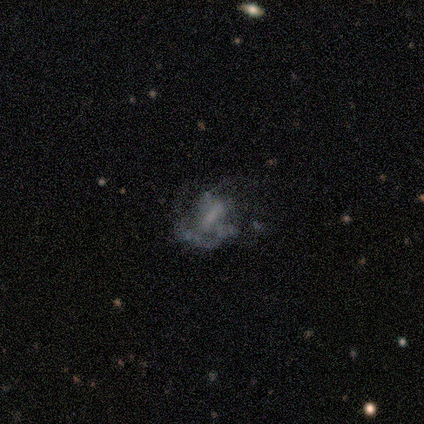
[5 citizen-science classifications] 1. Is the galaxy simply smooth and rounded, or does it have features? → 100% featured or disk, 0% smooth, 0% star or artifact.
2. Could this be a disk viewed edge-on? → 100% no, 0% yes.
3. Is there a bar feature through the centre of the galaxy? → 60% strong, 40% weak, 0% no.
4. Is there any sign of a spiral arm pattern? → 100% yes, 0% no.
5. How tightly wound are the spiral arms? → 60% loose, 40% tight, 0% medium.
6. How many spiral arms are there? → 40% 1 (tied), 40% 2 (tied), 20% can't tell, 0% 3, 0% 4, 0% more than 4.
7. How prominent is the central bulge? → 40% large, 20% moderate, 20% small, 20% none, 0% dominant.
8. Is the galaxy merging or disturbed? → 40% none (tied), 40% major disturbance (tied), 20% minor disturbance, 0% merger.